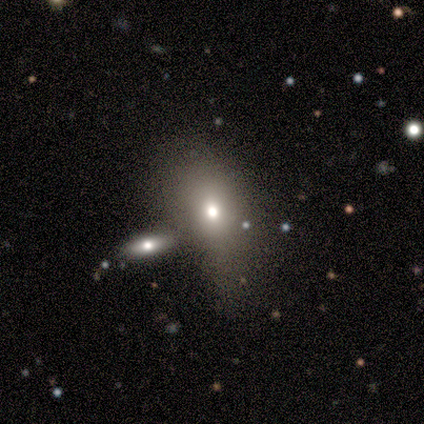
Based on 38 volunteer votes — Q: Smooth or featured?
A: smooth (47%); runner-up: featured or disk (29%)
Q: How rounded?
A: in between (44%); runner-up: round (39%)
Q: Merging?
A: none (48%); runner-up: minor disturbance (28%)